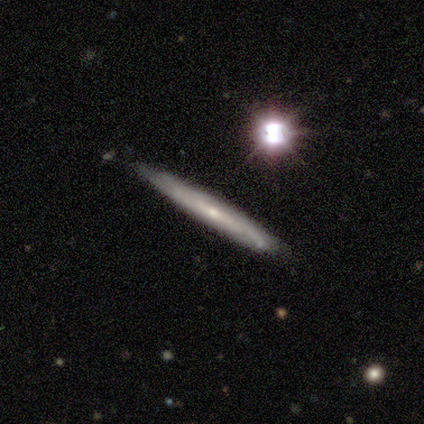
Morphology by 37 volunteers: Q: Smooth or featured?
A: featured or disk (65%); runner-up: smooth (24%)
Q: Edge-on disk?
A: yes (75%); runner-up: no (25%)
Q: Edge-on bulge?
A: none (61%); runner-up: rounded (39%)
Q: Merging?
A: none (88%); runner-up: minor disturbance (9%)